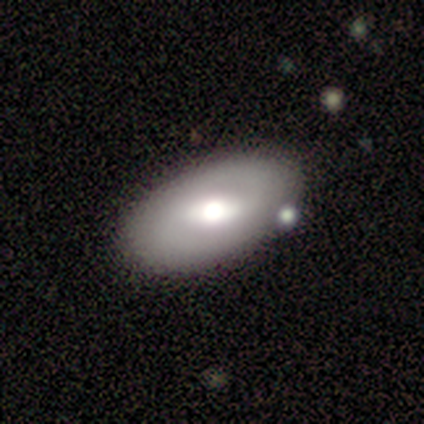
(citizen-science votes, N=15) Volunteers were most divided on "smooth or featured": smooth: 60%, featured or disk: 20%, star or artifact: 20%. More confident: how rounded — in between (100%); merging — none (67%).